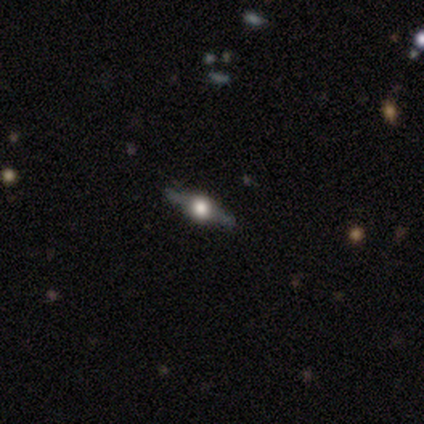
smooth_or_featured: featured or disk (p=1.00)
disk_edge_on: yes (p=1.00)
edge_on_bulge: rounded (p=1.00)
merging: none (p=0.75) [alt: minor disturbance p=0.25]